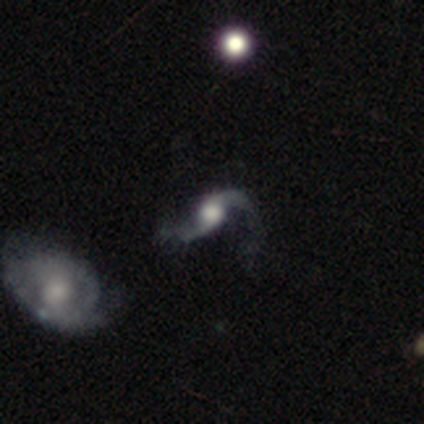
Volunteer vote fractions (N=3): featured or disk 100%, smooth 0%, star or artifact 0%. Down the decision tree: edge-on disk — no (100%); bar — weak (67%); spiral arms — yes (100%); spiral arm count — 2 (67%); spiral winding — loose (67%); bulge size — moderate (67%); merging — none (67%).